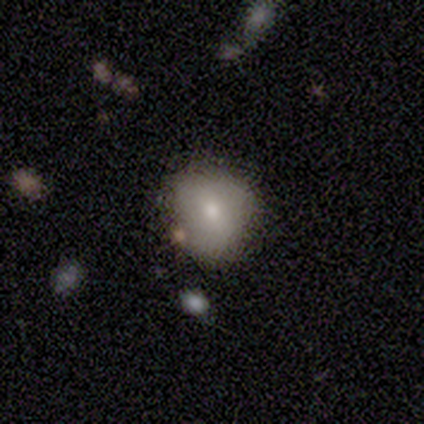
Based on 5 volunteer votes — Smooth or featured?
  - smooth: 60% *
  - featured or disk: 20%
  - star or artifact: 20%
How rounded?
  - round: 67% *
  - in between: 33%
  - cigar-shaped: 0%
Merging?
  - none: 100% *
  - minor disturbance: 0%
  - major disturbance: 0%
  - merger: 0%